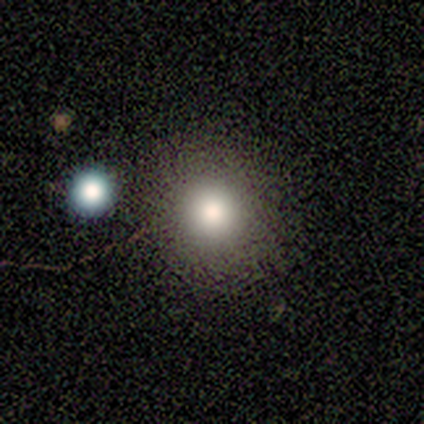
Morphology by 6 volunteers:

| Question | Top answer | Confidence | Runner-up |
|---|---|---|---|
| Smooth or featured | smooth | 67% | star or artifact (33%) |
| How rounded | round | 100% | — |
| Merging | none | 75% | major disturbance (25%) |